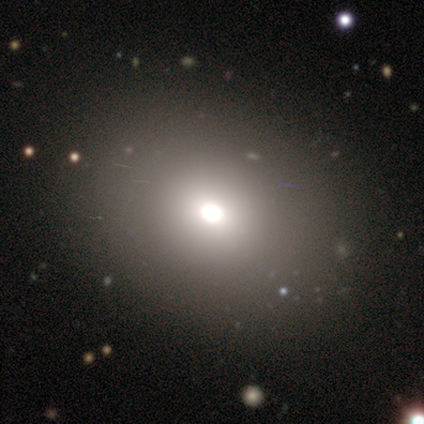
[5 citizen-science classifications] A featured or disk galaxy (60%) with a weak bar (50%, tied with no), no spiral arms (100%) and a large central bulge (50%, tied with moderate). Merging: none (60%).